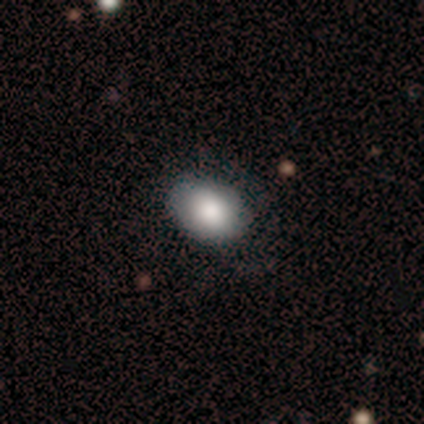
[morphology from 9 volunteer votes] smooth_or_featured: smooth (p=0.78) [alt: featured or disk p=0.22]
how_rounded: in between (p=1.00)
merging: none (p=0.78) [alt: minor disturbance p=0.22]